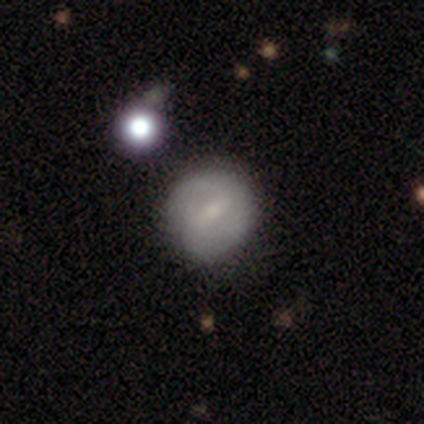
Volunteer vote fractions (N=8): Q: Smooth or featured?
A: smooth (38%); tied with: featured or disk (38%)
Q: How rounded?
A: round (100%)
Q: Merging?
A: minor disturbance (50%); runner-up: none (33%)